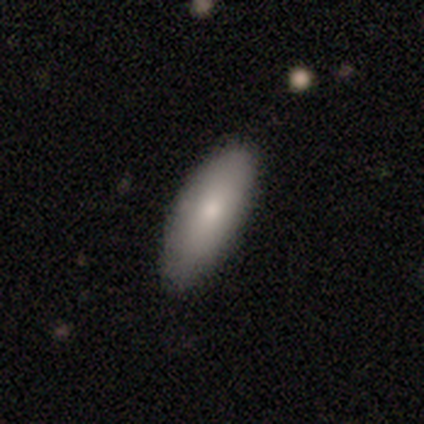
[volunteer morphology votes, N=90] smooth 81%, featured or disk 11%, star or artifact 8%. Down the decision tree: how rounded — in between (79%); merging — none (89%).